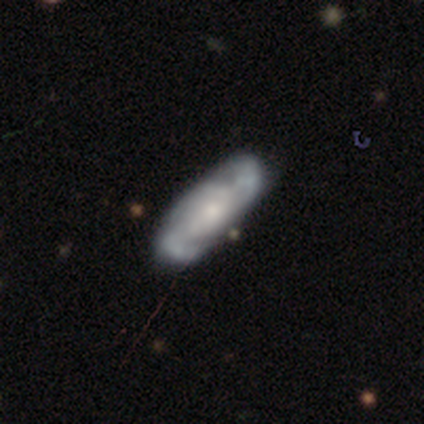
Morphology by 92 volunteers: smooth_or_featured: featured or disk (p=0.70) [alt: smooth p=0.23]
disk_edge_on: no (p=0.89) [alt: yes p=0.11]
bar: no (p=0.49) [alt: weak p=0.39]
has_spiral_arms: yes (p=0.84) [alt: no p=0.16]
spiral_winding: medium (p=0.42) [alt: tight p=0.29]
spiral_arm_count: 2 (p=0.62) [alt: can't tell p=0.17]
bulge_size: moderate (p=0.46) [alt: small p=0.40]
merging: none (p=0.68) [alt: minor disturbance p=0.20]